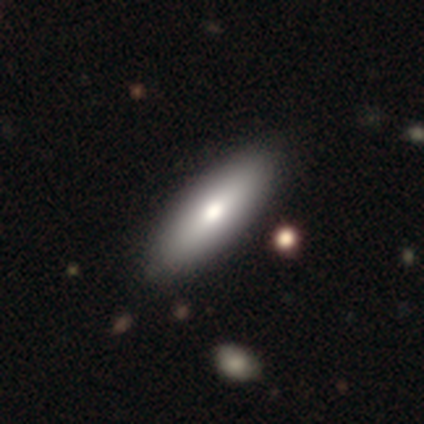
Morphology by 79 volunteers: smooth-or-featured: smooth: 78% | featured or disk: 16% | star or artifact: 5%
  how-rounded: in between: 73% | cigar-shaped: 27% | round: 0%
  merging: none: 44% | minor disturbance: 7% | major disturbance: 0% | merger: 0%